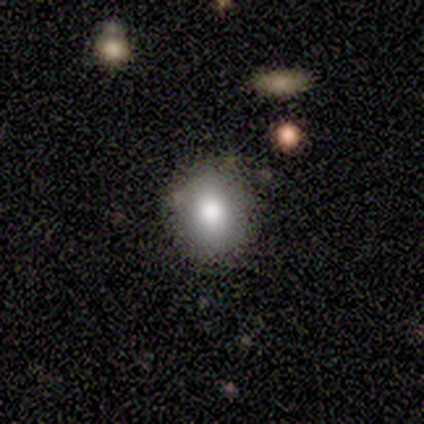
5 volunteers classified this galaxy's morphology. Volunteers were most divided on "smooth or featured" (2-way tie): smooth: 40%, featured or disk: 40%, star or artifact: 20%; "how rounded" (2-way tie): round: 50%, in between: 50%, cigar-shaped: 0%. More confident: merging — none (100%).